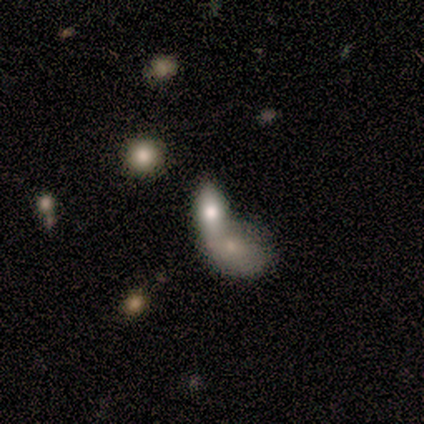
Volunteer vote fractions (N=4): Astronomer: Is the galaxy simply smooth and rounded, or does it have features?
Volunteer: smooth — 100%.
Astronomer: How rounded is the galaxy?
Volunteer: in between — 100%.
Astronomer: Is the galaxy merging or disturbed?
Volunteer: merger — 75%.